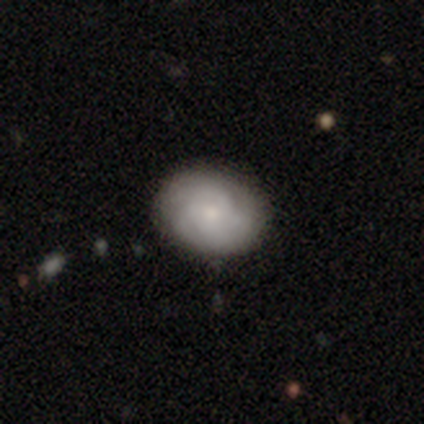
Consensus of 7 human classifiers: Volunteers were most divided on "smooth or featured": smooth: 57%, featured or disk: 43%, star or artifact: 0%. More confident: merging — none (100%); how rounded — in between (75%).